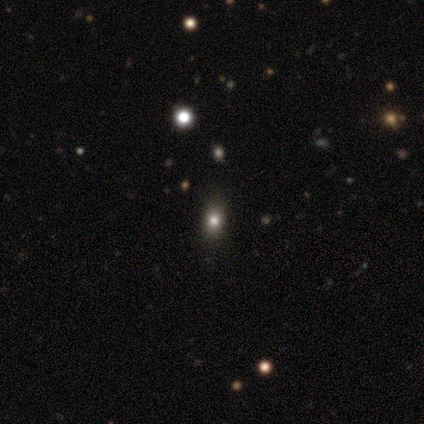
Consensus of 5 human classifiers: A star or artifact, not a galaxy (60%).